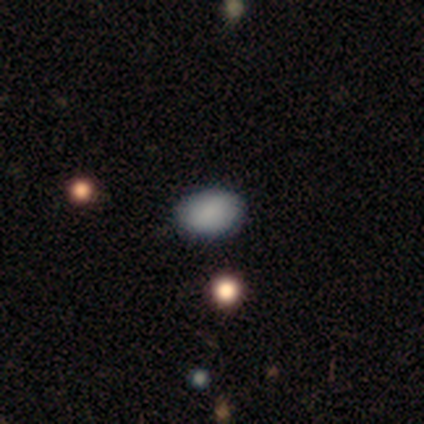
Smooth or featured? smooth (80%)
How rounded? in between (75%)
Merging? none (100%)